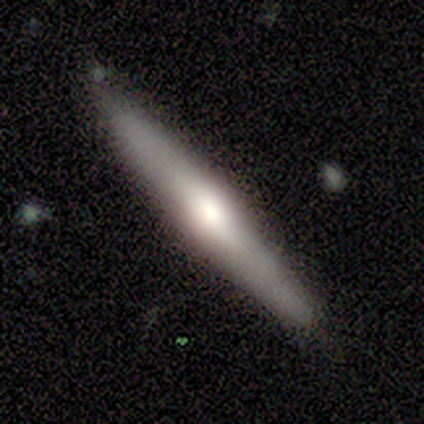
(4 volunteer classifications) smooth-or-featured: smooth: 50% (tied) | featured or disk: 50% (tied) | star or artifact: 0%
  how-rounded: cigar-shaped: 100% | round: 0% | in between: 0%
  merging: none: 75% | merger: 25% | minor disturbance: 0% | major disturbance: 0%